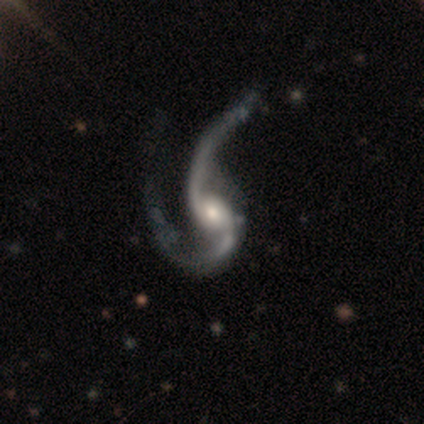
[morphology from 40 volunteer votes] smooth-or-featured: featured or disk: 95% | smooth: 2% | star or artifact: 2%
  disk-edge-on: no: 100% | yes: 0%
    bar: no: 61% | weak: 34% | strong: 5%
    has-spiral-arms: yes: 100% | no: 0%
      spiral-winding: loose: 87% | medium: 13% | tight: 0%
      spiral-arm-count: 2: 97% | 1: 3% | 3: 0% | 4: 0% | more than 4: 0% | can't tell: 0%
    bulge-size: moderate: 71% | small: 21% | large: 8% | dominant: 0% | none: 0%
  merging: major disturbance: 49% | none: 21% | merger: 5% | minor disturbance: 0%